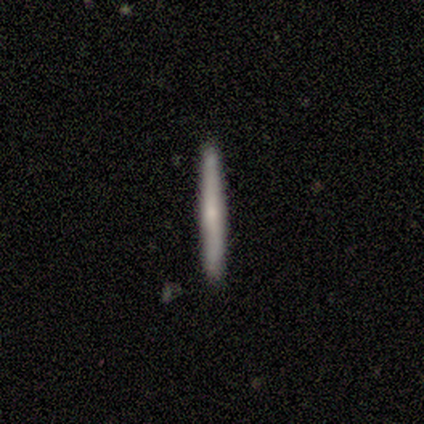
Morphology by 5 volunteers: Smooth or featured: smooth — 40% (tied with featured or disk — 40%)
How rounded: cigar-shaped — 100%
Merging: none — 100%